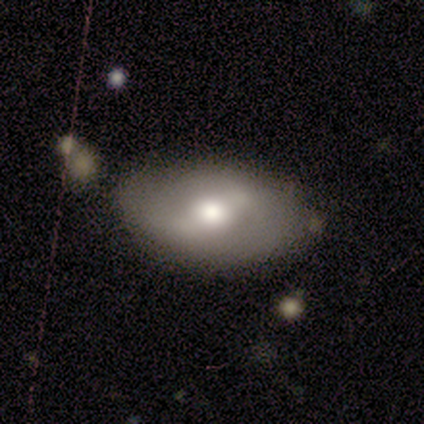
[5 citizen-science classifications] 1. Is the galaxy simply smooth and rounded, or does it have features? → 60% featured or disk, 40% smooth, 0% star or artifact.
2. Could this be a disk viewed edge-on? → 100% no, 0% yes.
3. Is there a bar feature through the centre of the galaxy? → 33% strong (tied), 33% weak (tied), 33% no (tied).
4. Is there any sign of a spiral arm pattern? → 67% yes, 33% no.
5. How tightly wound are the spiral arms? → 50% medium (tied), 50% loose (tied), 0% tight.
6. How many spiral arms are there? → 100% 2, 0% 1, 0% 3, 0% 4, 0% more than 4, 0% can't tell.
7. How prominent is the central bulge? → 67% moderate, 33% large, 0% dominant, 0% small, 0% none.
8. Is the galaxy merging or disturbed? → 80% none, 20% minor disturbance, 0% major disturbance, 0% merger.